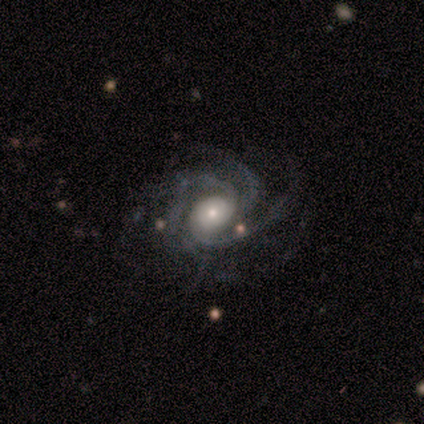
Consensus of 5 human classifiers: Smooth or featured? featured or disk (80%)
Edge-on disk? no (100%)
Bar? no (75%)
Spiral arms? yes (100%)
Spiral winding? medium (75%)
Spiral arm count? 3 (50%, tied with more than 4)
Bulge size? moderate (50%)
Merging? minor disturbance (40%, tied with major disturbance)